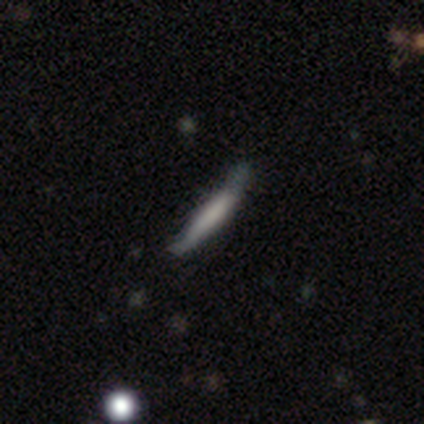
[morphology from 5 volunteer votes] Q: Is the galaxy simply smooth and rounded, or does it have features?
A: smooth — 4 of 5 (80%).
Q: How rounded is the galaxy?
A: cigar-shaped — 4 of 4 (100%).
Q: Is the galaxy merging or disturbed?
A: none — 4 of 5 (80%).